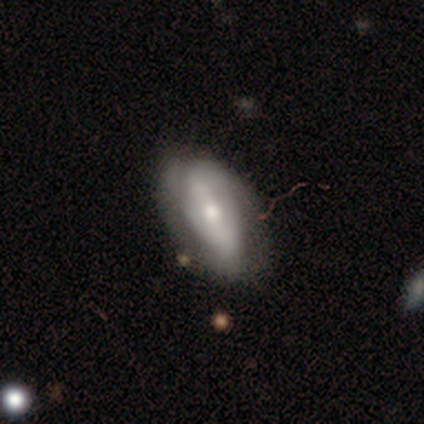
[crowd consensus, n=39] Smooth or featured? featured or disk (64%)
Edge-on disk? no (96%)
Bar? strong (46%, tied with weak)
Spiral arms? yes (75%)
Spiral winding? tight (50%)
Spiral arm count? 2 (61%)
Bulge size? moderate (50%)
Merging? none (62%)